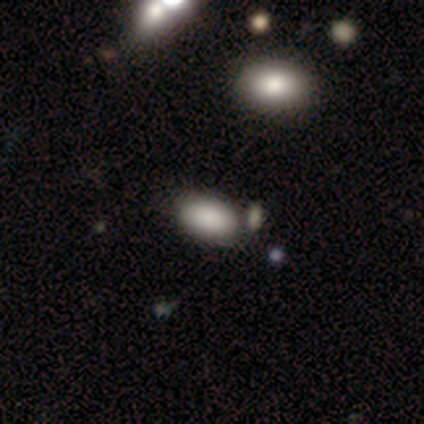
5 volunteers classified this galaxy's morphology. This is clearly a smooth galaxy (80%). How rounded: likely in between (75%). Merging: clearly none (80%).